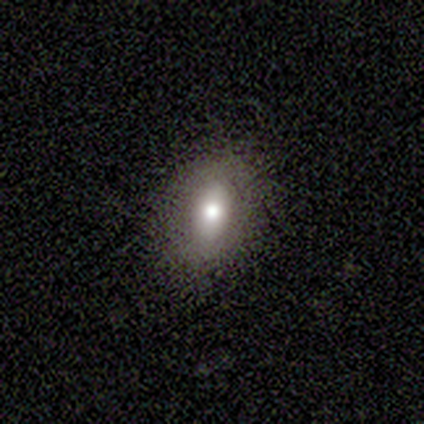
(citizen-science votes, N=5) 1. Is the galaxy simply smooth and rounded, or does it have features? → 80% smooth, 20% featured or disk, 0% star or artifact.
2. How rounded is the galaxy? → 100% in between, 0% round, 0% cigar-shaped.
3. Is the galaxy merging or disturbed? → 100% none, 0% minor disturbance, 0% major disturbance, 0% merger.